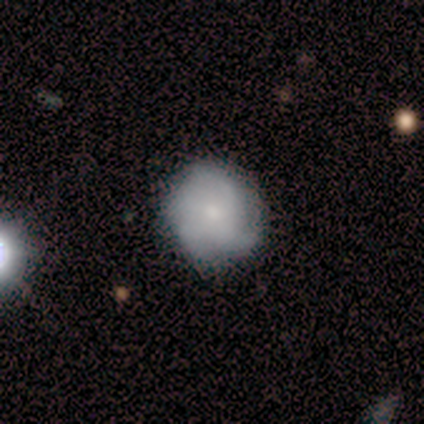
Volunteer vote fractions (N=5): smooth 80%, featured or disk 20%, star or artifact 0%. Down the decision tree: how rounded — round (100%); merging — none (60%).